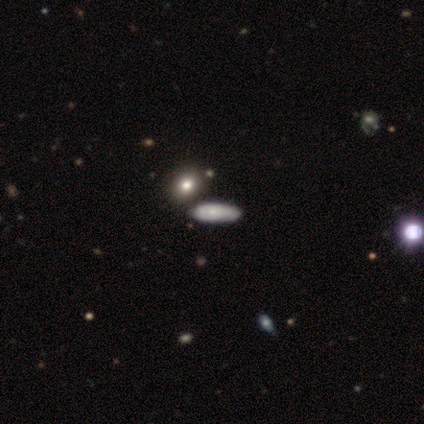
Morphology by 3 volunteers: Smooth or featured? 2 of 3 (67%) said smooth. How rounded? 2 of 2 (100%) said in between. Merging? 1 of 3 (33%, tied with major disturbance and merger) said none.